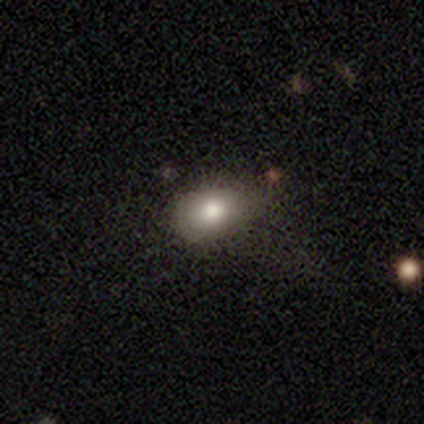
smooth-or-featured: smooth: 80% | star or artifact: 20% | featured or disk: 0%
  how-rounded: in between: 75% | round: 25% | cigar-shaped: 0%
  merging: minor disturbance: 75% | none: 25% | major disturbance: 0% | merger: 0%